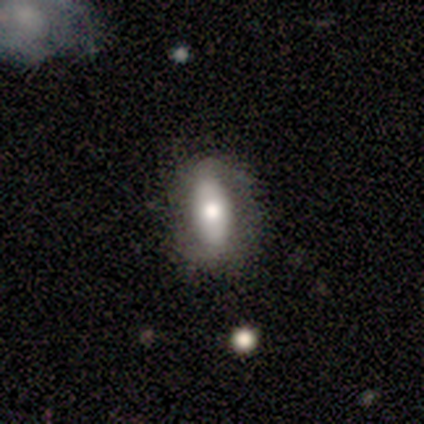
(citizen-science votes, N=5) A smooth galaxy with no disk features (60%) that is in between round and cigar-shaped (67%).

Vote fractions:
- Smooth or featured? smooth: 60% / featured or disk: 40% / star or artifact: 0%
- How rounded? in between: 67% / round: 33% / cigar-shaped: 0%
- Merging? none: 100% / minor disturbance: 0% / major disturbance: 0% / merger: 0%